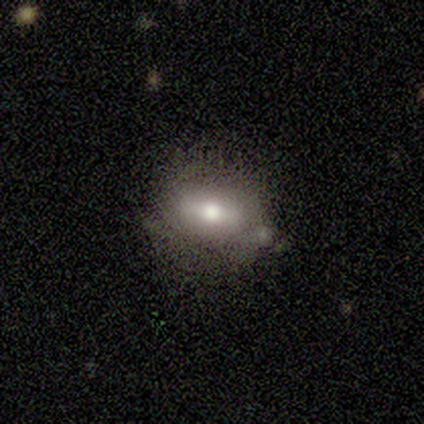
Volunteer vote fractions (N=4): Morphology: type=smooth (75%); roundness=in between (100%); merging=none (75%).